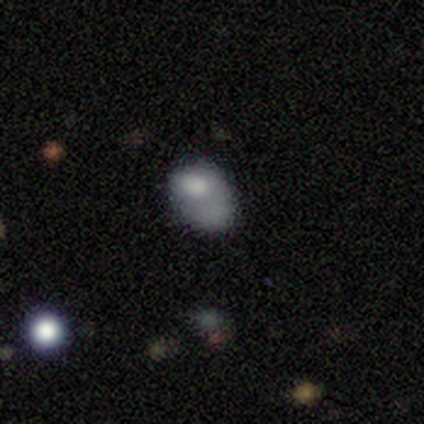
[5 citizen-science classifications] A smooth galaxy with no disk features (40%, tied with star or artifact) that is in between round and cigar-shaped (100%).

Vote fractions:
- Smooth or featured? smooth: 40% (tied) / star or artifact: 40% (tied) / featured or disk: 20%
- How rounded? in between: 100% / round: 0% / cigar-shaped: 0%
- Merging? none: 33% (tied) / major disturbance: 33% (tied) / merger: 33% (tied) / minor disturbance: 0%